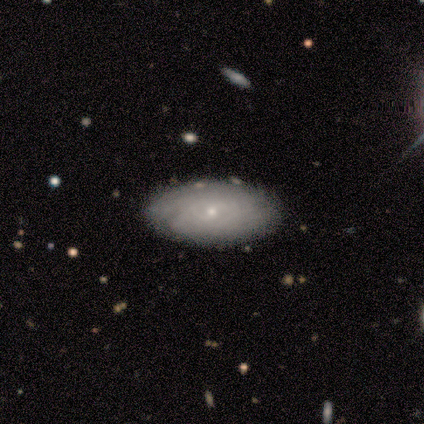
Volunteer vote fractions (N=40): This appears to be a featured or disk galaxy (60%) with no bar (75%), tight (80%) spiral arms (83%) and a small central bulge (88%). Merging: none (62%).